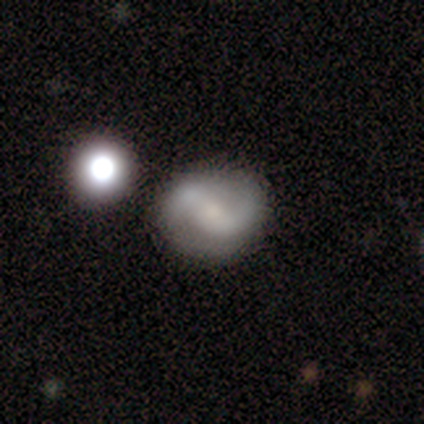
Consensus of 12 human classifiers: Smooth or featured: featured or disk — 67% (smooth — 33%)
Edge-on disk: no — 100%
Bar: weak — 50% (strong — 38%)
Spiral arms: yes — 88% (no — 12%)
Spiral winding: medium — 57% (loose — 29%)
Spiral arm count: 2 — 100%
Bulge size: none — 38% (moderate — 25%)
Merging: none — 83% (merger — 17%)